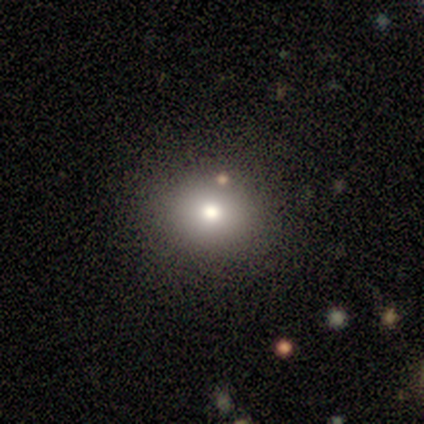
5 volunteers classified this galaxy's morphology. smooth_or_featured: star or artifact (p=0.60) [alt: smooth p=0.40]